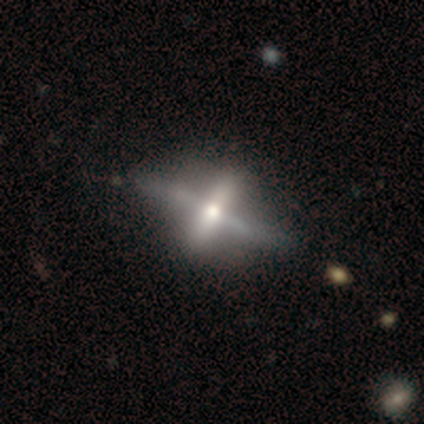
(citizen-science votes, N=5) Q: Smooth or featured?
A: featured or disk (100%)
Q: Edge-on disk?
A: yes (60%); runner-up: no (40%)
Q: Edge-on bulge?
A: rounded (67%); runner-up: none (33%)
Q: Merging?
A: none (80%); runner-up: minor disturbance (20%)